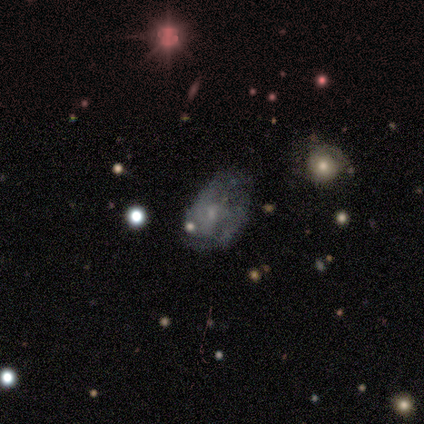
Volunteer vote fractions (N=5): Q: Smooth or featured?
A: star or artifact (60%); runner-up: featured or disk (40%)